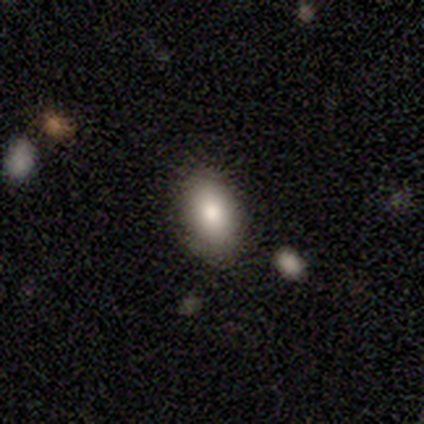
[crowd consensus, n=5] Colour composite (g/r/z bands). It shows a smooth galaxy with no disk features (100%) that is in between round and cigar-shaped (60%). Merging: none (80%).